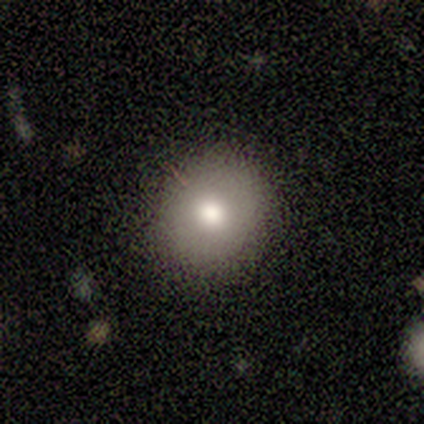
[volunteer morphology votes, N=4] type=smooth (75%); roundness=round (100%); merging=none (100%).